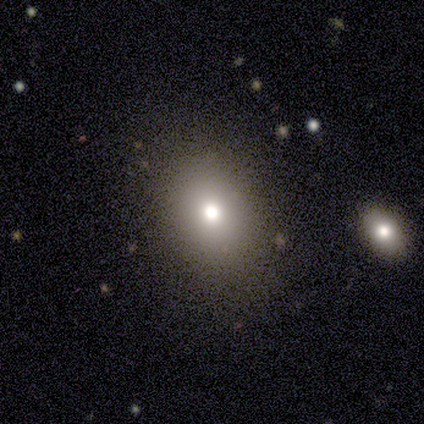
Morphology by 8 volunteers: Overall: smooth (75%). How rounded: in between (83%). Merging: none (86%).